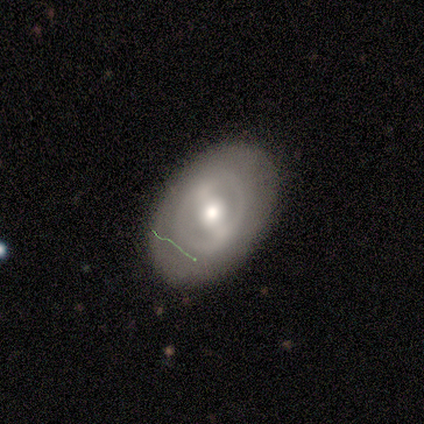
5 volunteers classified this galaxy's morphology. This appears to be a featured or disk galaxy (100%) with no bar (60%), no spiral arms (80%) and a moderate central bulge (60%). Merging: none (100%).